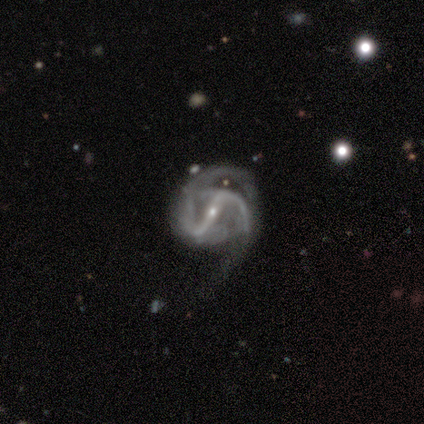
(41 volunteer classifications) smooth_or_featured: featured or disk (p=0.98) [alt: smooth p=0.02]
disk_edge_on: no (p=0.97) [alt: yes p=0.03]
bar: strong (p=0.90) [alt: weak p=0.10]
has_spiral_arms: yes (p=1.00)
spiral_winding: medium (p=0.51) [alt: tight p=0.26]
spiral_arm_count: 2 (p=0.87) [alt: 3 p=0.10]
bulge_size: small (p=0.87) [alt: moderate p=0.13]
merging: major disturbance (p=0.46) [alt: none p=0.39]